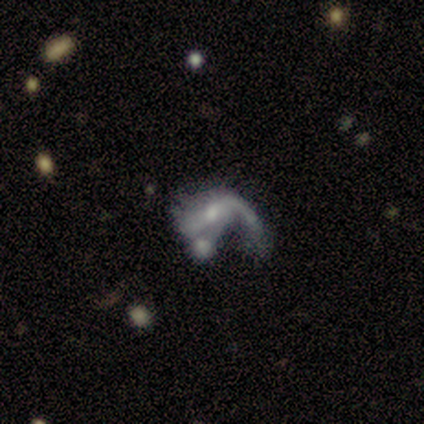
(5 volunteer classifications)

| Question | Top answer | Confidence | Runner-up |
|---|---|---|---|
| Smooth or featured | featured or disk | 80% | smooth (20%) |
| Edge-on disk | no | 100% | — |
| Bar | no | 50% | strong (25%) |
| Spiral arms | yes | 50% | tied: no (50%) |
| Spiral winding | tight | 50% | tied: loose (50%) |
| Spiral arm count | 1 | 50% | tied: 2 (50%) |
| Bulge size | small | 75% | moderate (25%) |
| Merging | major disturbance | 40% | tied: merger (40%) |